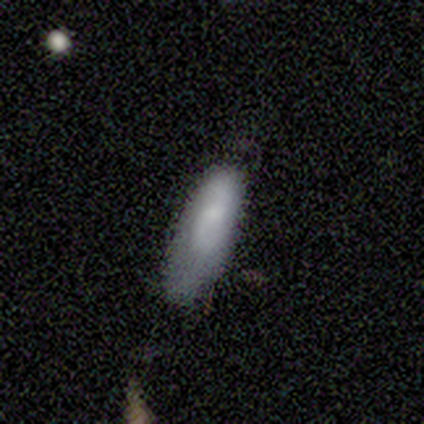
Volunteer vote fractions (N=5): Smooth or featured? smooth (60%)
How rounded? in between (100%)
Merging? minor disturbance (60%)